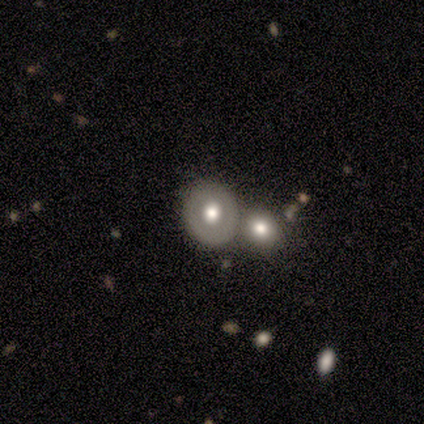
smooth-or-featured: smooth: 67% | star or artifact: 33% | featured or disk: 0%
  how-rounded: in between: 100% | round: 0% | cigar-shaped: 0%
  merging: major disturbance: 50% (tied) | merger: 50% (tied) | none: 0% | minor disturbance: 0%